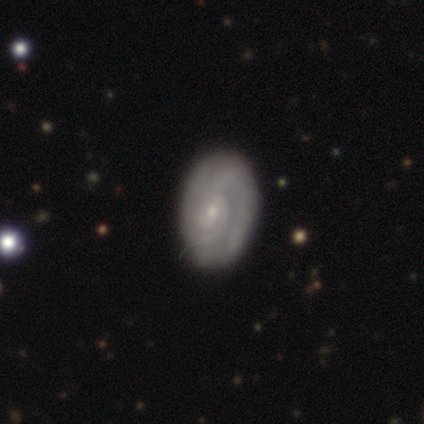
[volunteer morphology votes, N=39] A featured or disk galaxy (87%) with a weak bar (45%), 2 (63%) tight (80%) spiral arms (91%) and a small central bulge (85%).

Vote fractions:
- Smooth or featured? featured or disk: 87% / smooth: 8% / star or artifact: 5%
- Edge-on disk? no: 97% / yes: 3%
- Bar? weak: 45% / no: 42% / strong: 12%
- Spiral arms? yes: 91% / no: 9%
- Spiral winding? tight: 80% / loose: 13% / medium: 7%
- Spiral arm count? 2: 63% / can't tell: 23% / 3: 10% / 4: 3% / 1: 0% / more than 4: 0%
- Bulge size? small: 85% / moderate: 12% / none: 3% / dominant: 0% / large: 0%
- Merging? none: 95% / minor disturbance: 3% / major disturbance: 3% / merger: 0%